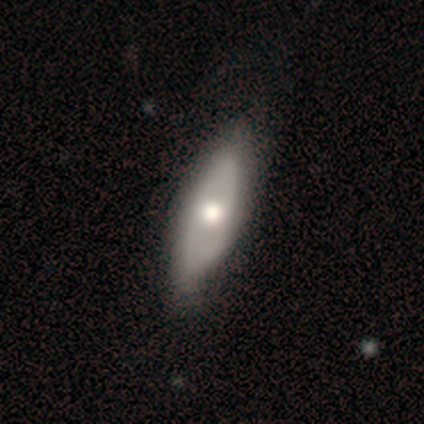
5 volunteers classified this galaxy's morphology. Overall: featured or disk (60%; smooth 40%). Edge-on disk: no (67%; yes 33%). Bar: no (100%). Spiral arms: yes (50%, tied with no). Spiral arm count: can't tell (100%). Spiral winding: medium (100%). Bulge size: large (50%, tied with small). Merging: none (80%).